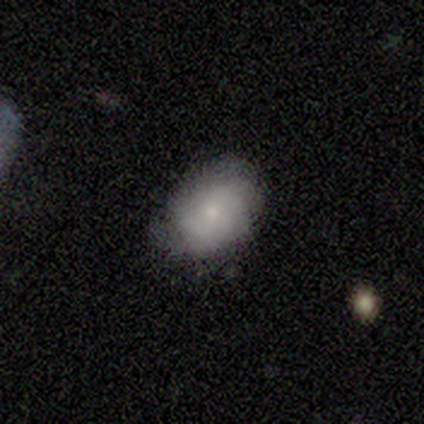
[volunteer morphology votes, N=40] This appears to be a featured or disk galaxy (50%) with no bar (63%), tight (60%) spiral arms (79%) and a small central bulge (68%). Merging: none (66%).